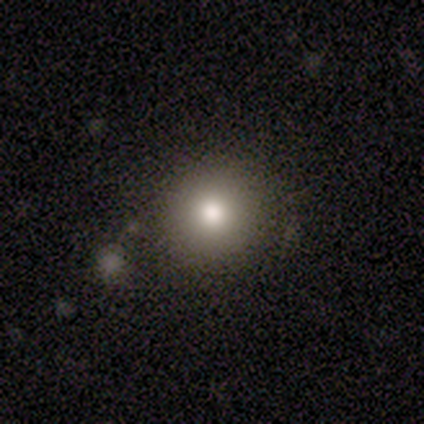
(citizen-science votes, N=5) This appears to be a smooth galaxy with no disk features (100%) that is round (100%). Merging: none (100%).